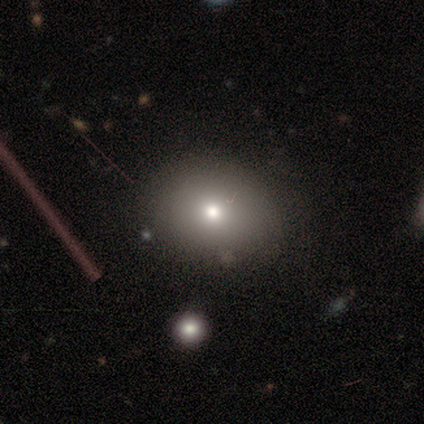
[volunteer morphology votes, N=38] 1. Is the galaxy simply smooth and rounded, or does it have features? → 76% smooth, 16% featured or disk, 8% star or artifact.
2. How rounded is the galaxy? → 52% in between, 48% round, 0% cigar-shaped.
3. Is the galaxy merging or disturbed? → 74% none, 17% minor disturbance, 6% merger, 3% major disturbance.